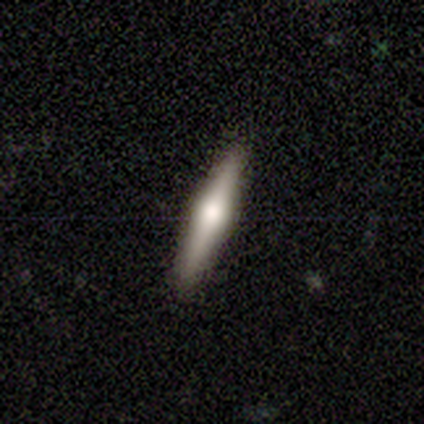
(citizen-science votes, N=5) A featured or disk galaxy (60%) viewed edge-on (100%) with a rounded central bulge (100%).

Vote fractions:
- Smooth or featured? featured or disk: 60% / smooth: 40% / star or artifact: 0%
- Edge-on disk? yes: 100% / no: 0%
- Edge-on bulge? rounded: 100% / boxy: 0% / none: 0%
- Merging? none: 100% / minor disturbance: 0% / major disturbance: 0% / merger: 0%